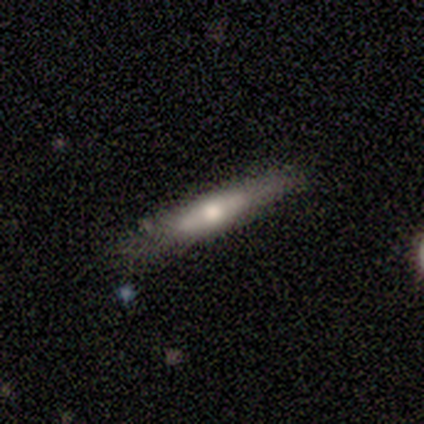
smooth-or-featured: featured or disk: 80% | smooth: 20% | star or artifact: 0%
  disk-edge-on: yes: 50% (tied) | no: 50% (tied)
    edge-on-bulge: rounded: 100% | boxy: 0% | none: 0%
  merging: none: 60% | minor disturbance: 40% | major disturbance: 0% | merger: 0%